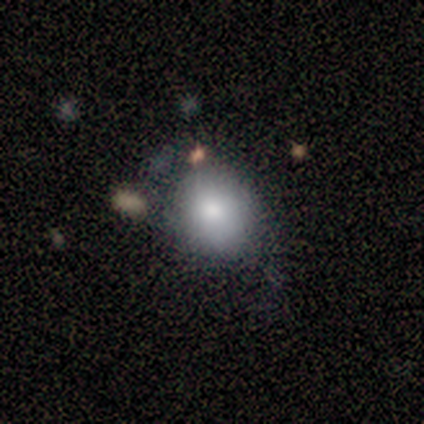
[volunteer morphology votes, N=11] type=smooth (100%); roundness=round (73%); merging=none (45%, tied with minor disturbance).